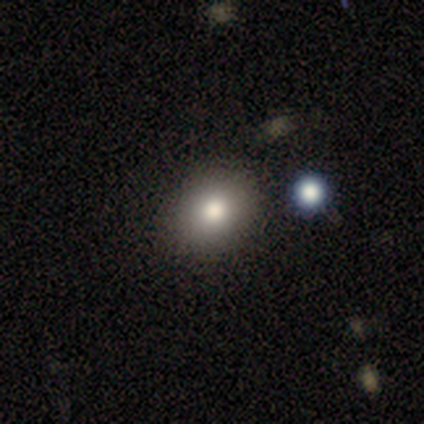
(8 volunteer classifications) smooth 75%, star or artifact 25%, featured or disk 0%. Down the decision tree: how rounded — round (50%, tied with in between); merging — none (83%).